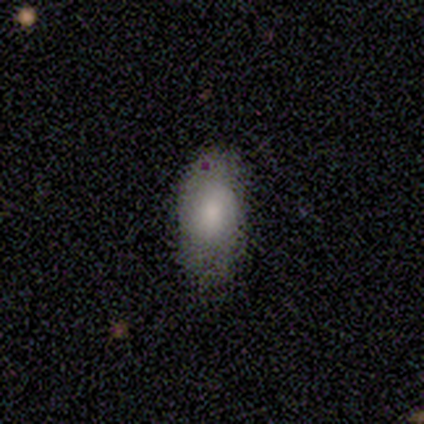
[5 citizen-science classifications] Overall: smooth (80%). How rounded: in between (100%). Merging: none (80%).